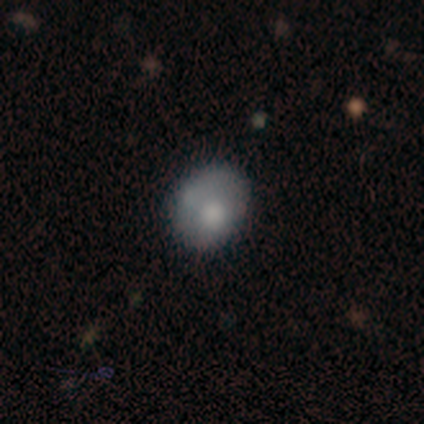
smooth_or_featured: smooth (p=0.60) [alt: featured or disk p=0.20]
how_rounded: round (p=0.67) [alt: in between p=0.33]
merging: none (p=0.75) [alt: minor disturbance p=0.25]